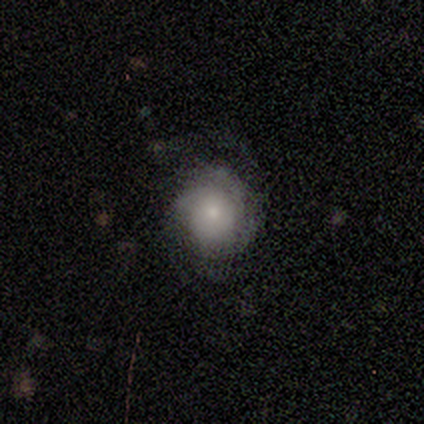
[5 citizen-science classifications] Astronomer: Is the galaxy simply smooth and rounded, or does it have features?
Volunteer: featured or disk — 80%.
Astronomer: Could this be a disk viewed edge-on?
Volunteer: no — 100%.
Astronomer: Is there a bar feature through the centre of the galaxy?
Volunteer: no — 100%.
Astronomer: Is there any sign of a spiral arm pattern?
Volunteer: yes — 75%.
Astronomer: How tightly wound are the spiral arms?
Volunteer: tight — 67%.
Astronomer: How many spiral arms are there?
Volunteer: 2 — 33%, tied with 3 and can't tell at 33%.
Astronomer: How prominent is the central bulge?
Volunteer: moderate — 75%.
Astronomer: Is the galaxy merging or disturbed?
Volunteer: none — 80%.